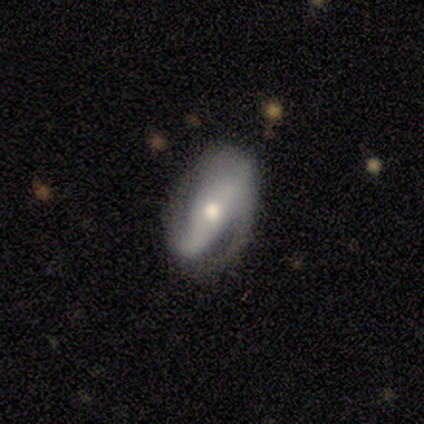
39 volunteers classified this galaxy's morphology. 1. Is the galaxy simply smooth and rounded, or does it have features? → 72% featured or disk, 21% smooth, 8% star or artifact.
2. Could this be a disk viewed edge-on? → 79% no, 21% yes.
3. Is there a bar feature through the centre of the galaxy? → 41% strong, 36% no, 23% weak.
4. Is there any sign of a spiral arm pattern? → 82% yes, 18% no.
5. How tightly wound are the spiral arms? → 39% tight, 33% medium, 28% loose.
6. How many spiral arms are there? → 89% 2, 11% can't tell, 0% 1, 0% 3, 0% 4, 0% more than 4.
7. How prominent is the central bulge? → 82% moderate, 14% large, 5% dominant, 0% small, 0% none.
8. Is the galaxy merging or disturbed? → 47% none, 36% minor disturbance, 14% major disturbance, 3% merger.